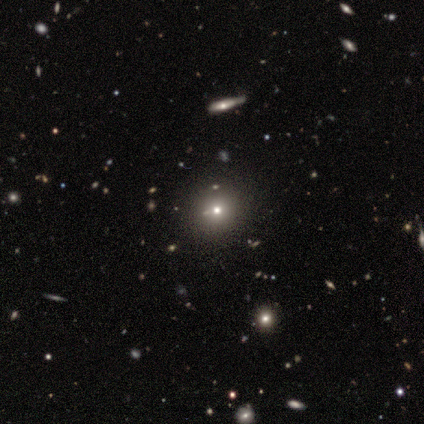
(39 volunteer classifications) smooth-or-featured: smooth: 56% | star or artifact: 38% | featured or disk: 5%
  how-rounded: round: 95% | in between: 5% | cigar-shaped: 0%
  merging: none: 75% | minor disturbance: 12% | merger: 8% | major disturbance: 4%